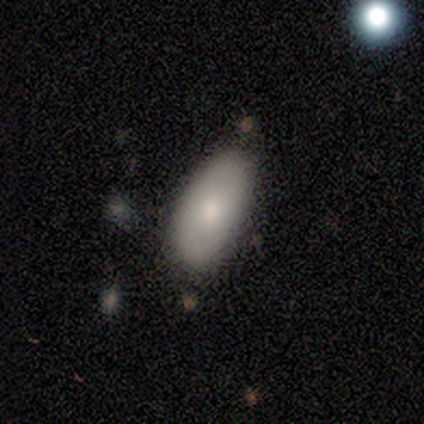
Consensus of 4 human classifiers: Smooth or featured? smooth (75%)
How rounded? in between (100%)
Merging? none (75%)